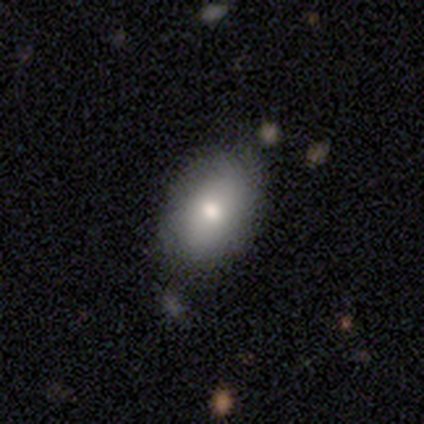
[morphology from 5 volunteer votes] smooth 60%, featured or disk 40%, star or artifact 0%. Down the decision tree: how rounded — in between (100%); merging — none (80%).